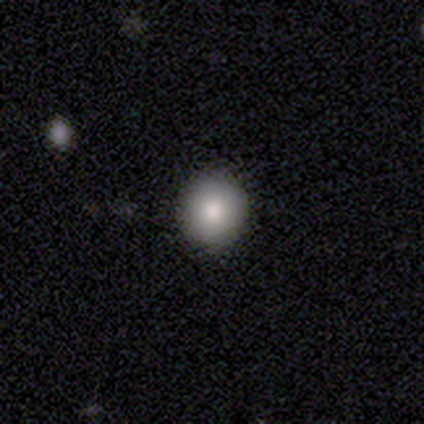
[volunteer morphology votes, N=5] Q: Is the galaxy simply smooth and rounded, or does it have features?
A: smooth — 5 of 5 (100%).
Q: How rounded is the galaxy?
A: round — 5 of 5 (100%).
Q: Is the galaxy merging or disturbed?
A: none — 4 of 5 (80%).